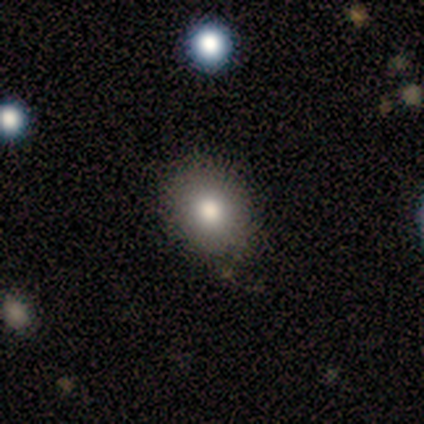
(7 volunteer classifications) Smooth or featured?
  - smooth: 57% *
  - star or artifact: 29%
  - featured or disk: 14%
How rounded?
  - round: 75% *
  - in between: 25%
  - cigar-shaped: 0%
Merging?
  - none: 100% *
  - minor disturbance: 0%
  - major disturbance: 0%
  - merger: 0%